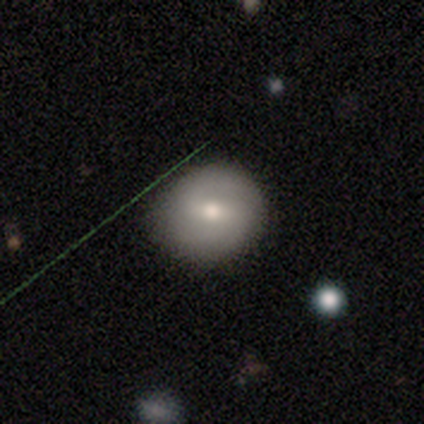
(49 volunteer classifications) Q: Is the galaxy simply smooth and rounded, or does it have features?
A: featured or disk — 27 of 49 (55%).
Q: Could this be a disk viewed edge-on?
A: no — 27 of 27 (100%).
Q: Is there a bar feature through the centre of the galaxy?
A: weak — 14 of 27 (52%).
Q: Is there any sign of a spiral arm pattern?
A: yes — 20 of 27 (74%).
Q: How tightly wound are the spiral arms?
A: medium — 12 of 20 (60%).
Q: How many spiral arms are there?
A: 2 — 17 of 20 (85%).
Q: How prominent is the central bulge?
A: moderate — 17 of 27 (63%).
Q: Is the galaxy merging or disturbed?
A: none — 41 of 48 (85%).